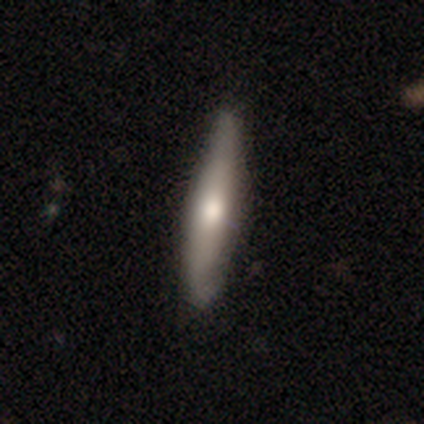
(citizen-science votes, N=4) Smooth or featured?
  - smooth: 100% *
  - featured or disk: 0%
  - star or artifact: 0%
How rounded?
  - cigar-shaped: 100% *
  - round: 0%
  - in between: 0%
Merging?
  - none: 100% *
  - minor disturbance: 0%
  - major disturbance: 0%
  - merger: 0%